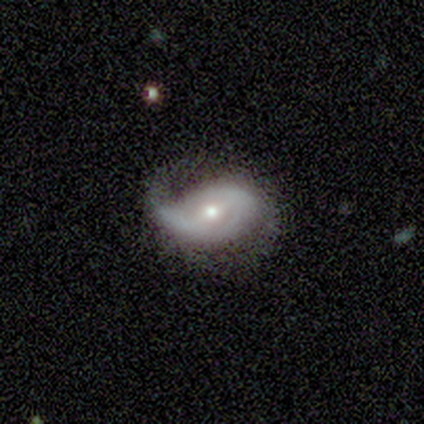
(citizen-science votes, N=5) Smooth or featured? featured or disk (80%)
Edge-on disk? no (100%)
Bar? weak (75%)
Spiral arms? yes (100%)
Spiral winding? medium (75%)
Spiral arm count? 2 (75%)
Bulge size? moderate (75%)
Merging? none (50%, tied with minor disturbance)